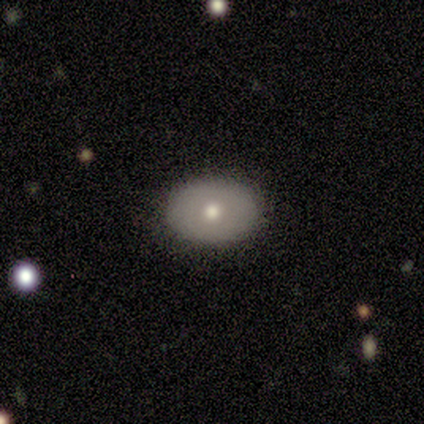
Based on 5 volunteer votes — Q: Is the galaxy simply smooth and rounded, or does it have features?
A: smooth — 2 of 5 (40%, tied with featured or disk).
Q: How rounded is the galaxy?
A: in between — 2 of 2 (100%).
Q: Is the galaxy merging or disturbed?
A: none — 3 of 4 (75%).